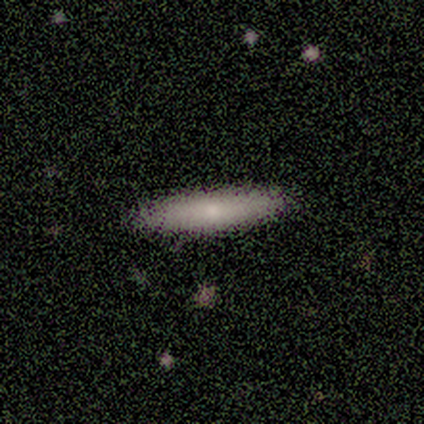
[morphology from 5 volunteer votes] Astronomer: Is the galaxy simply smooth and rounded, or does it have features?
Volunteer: smooth — 80%.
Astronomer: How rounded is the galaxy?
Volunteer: cigar-shaped — 75%.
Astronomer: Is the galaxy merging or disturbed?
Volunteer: none — 100%.